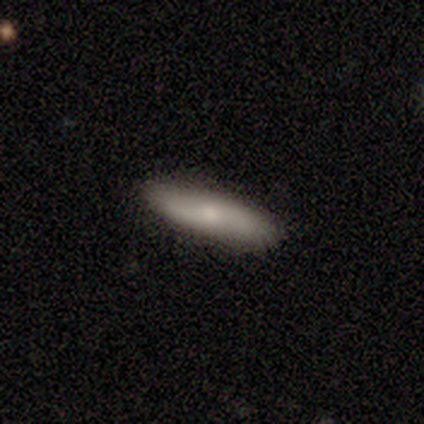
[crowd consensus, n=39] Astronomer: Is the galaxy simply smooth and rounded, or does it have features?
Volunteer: smooth — 59%.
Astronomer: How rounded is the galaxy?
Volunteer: cigar-shaped — 61%.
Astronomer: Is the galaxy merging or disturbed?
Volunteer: none — 85%.